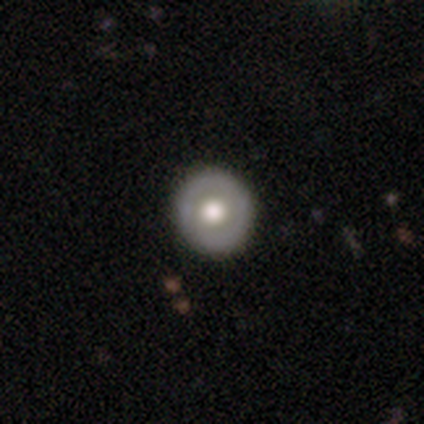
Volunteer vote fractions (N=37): Morphology: type=smooth (49%); roundness=round (100%); merging=none (94%).